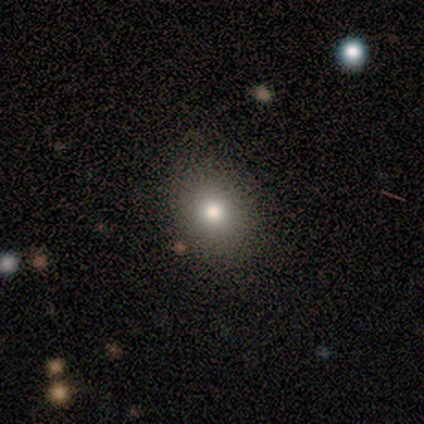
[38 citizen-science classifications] A smooth galaxy with no disk features (66%) that is round (68%). Merging: none (87%).